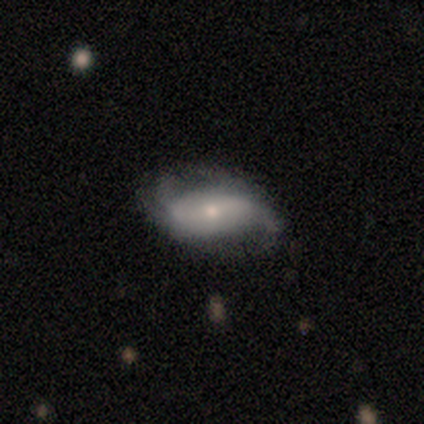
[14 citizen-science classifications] Overall: featured or disk (100%). Edge-on disk: no (100%). Bar: weak (43%; strong 29%). Spiral arms: yes (93%). Spiral arm count: 2 (85%). Spiral winding: loose (54%; medium 46%). Bulge size: small (64%; moderate 29%). Merging: none (79%).